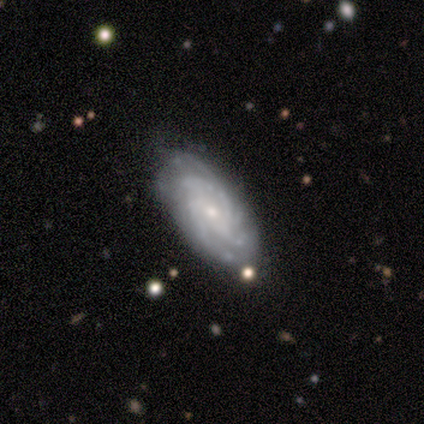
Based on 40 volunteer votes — Smooth or featured: featured or disk — 92% (smooth — 8%)
Edge-on disk: no — 97% (yes — 3%)
Bar: no — 64% (weak — 33%)
Spiral arms: yes — 100%
Spiral winding: tight — 72% (medium — 28%)
Spiral arm count: more than 4 — 36% (3 — 22%)
Bulge size: small — 61% (moderate — 39%)
Merging: none — 90% (minor disturbance — 5%)